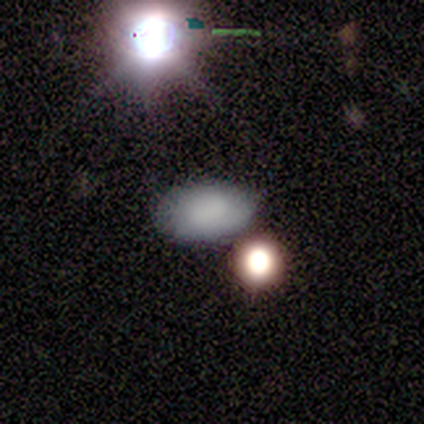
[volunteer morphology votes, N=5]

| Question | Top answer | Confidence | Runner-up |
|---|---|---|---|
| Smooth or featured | smooth | 80% | star or artifact (20%) |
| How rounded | in between | 100% | — |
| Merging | none | 75% | minor disturbance (25%) |